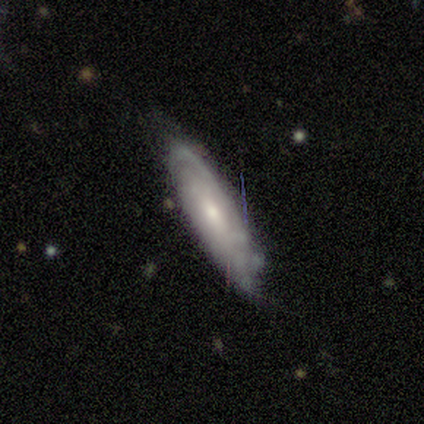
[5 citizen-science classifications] Smooth or featured? featured or disk (60%)
Edge-on disk? no (67%)
Bar? no (100%)
Spiral arms? yes (100%)
Spiral winding? tight (100%)
Spiral arm count? can't tell (100%)
Bulge size? moderate (100%)
Merging? none (60%)